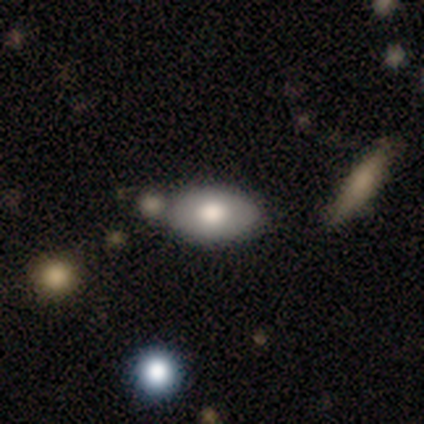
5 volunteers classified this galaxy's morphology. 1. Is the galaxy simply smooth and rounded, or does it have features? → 60% featured or disk, 40% smooth, 0% star or artifact.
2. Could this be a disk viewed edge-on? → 67% no, 33% yes.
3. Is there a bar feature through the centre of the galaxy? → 50% weak (tied), 50% no (tied), 0% strong.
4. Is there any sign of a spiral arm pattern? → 100% no, 0% yes.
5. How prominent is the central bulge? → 100% large, 0% dominant, 0% moderate, 0% small, 0% none.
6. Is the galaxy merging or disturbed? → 60% none, 40% minor disturbance, 0% major disturbance, 0% merger.